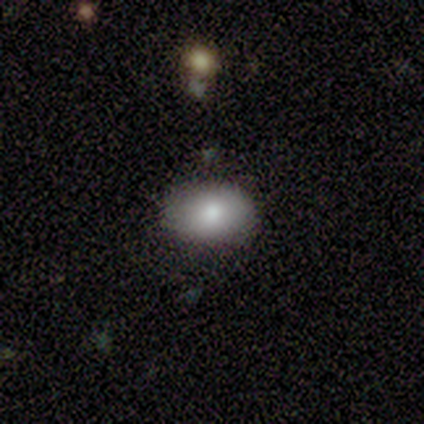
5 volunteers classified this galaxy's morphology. This appears to be a smooth galaxy with no disk features (80%) that is in between round and cigar-shaped (75%). Merging: none (100%).